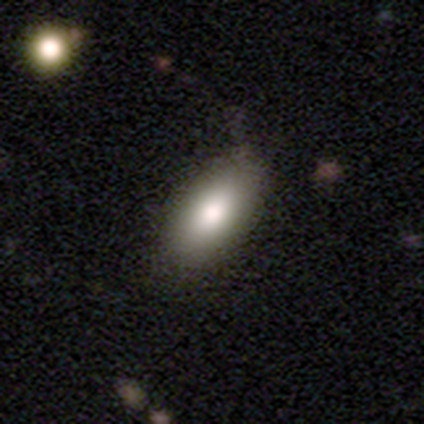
Q: Smooth or featured?
A: smooth (100%)
Q: How rounded?
A: in between (100%)
Q: Merging?
A: none (75%); runner-up: minor disturbance (25%)